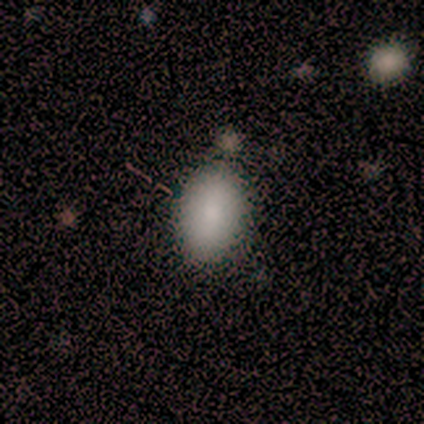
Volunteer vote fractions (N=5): Overall: smooth (100%). How rounded: in between (100%). Merging: none (100%).